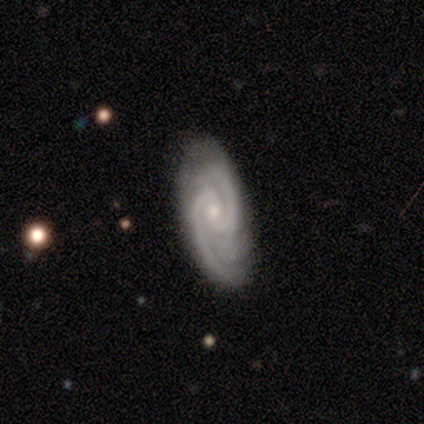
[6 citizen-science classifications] This appears to be a featured or disk galaxy (100%) with a weak bar (50%), 2 (67%) tight (67%) spiral arms (100%) and a small central bulge (67%). Merging: none (100%).